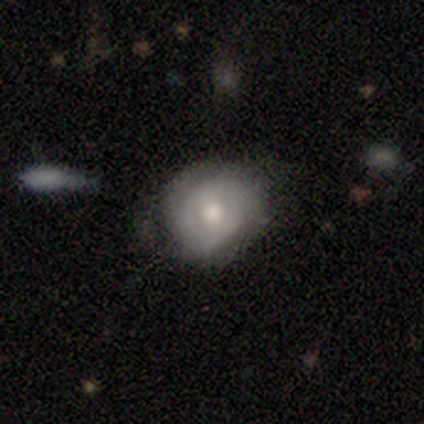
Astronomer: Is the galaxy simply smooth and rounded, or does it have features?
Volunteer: featured or disk — 63%.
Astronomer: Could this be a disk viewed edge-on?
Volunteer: no — 100%.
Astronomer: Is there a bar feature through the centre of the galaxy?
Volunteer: weak — 46%, tied with no at 46%.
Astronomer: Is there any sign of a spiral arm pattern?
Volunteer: yes — 62%.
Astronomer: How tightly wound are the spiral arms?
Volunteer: tight — 60%.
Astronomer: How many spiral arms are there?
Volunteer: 2 — 60%.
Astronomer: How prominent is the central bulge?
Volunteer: moderate — 75%.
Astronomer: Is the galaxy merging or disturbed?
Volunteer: none — 70%.